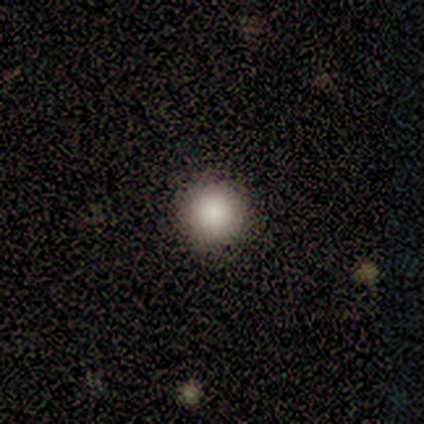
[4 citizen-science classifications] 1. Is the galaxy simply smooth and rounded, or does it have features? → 100% smooth, 0% featured or disk, 0% star or artifact.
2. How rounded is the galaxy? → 100% round, 0% in between, 0% cigar-shaped.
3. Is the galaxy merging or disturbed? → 75% none, 25% minor disturbance, 0% major disturbance, 0% merger.